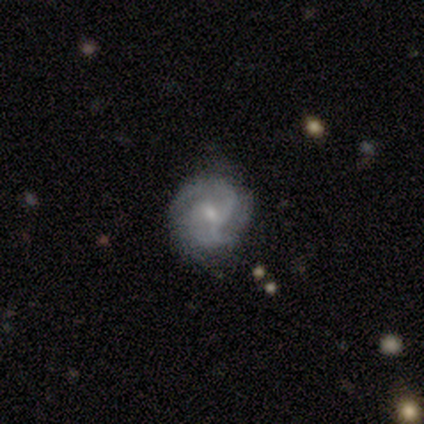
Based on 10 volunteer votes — smooth-or-featured: featured or disk: 90% | smooth: 10% | star or artifact: 0%
  disk-edge-on: no: 89% | yes: 11%
    bar: weak: 50% (tied) | no: 50% (tied) | strong: 0%
    has-spiral-arms: yes: 100% | no: 0%
      spiral-winding: medium: 50% | tight: 38% | loose: 12%
      spiral-arm-count: 3: 50% | 2: 25% | can't tell: 25% | 1: 0% | 4: 0% | more than 4: 0%
    bulge-size: small: 62% | moderate: 38% | dominant: 0% | large: 0% | none: 0%
  merging: none: 80% | minor disturbance: 20% | major disturbance: 0% | merger: 0%